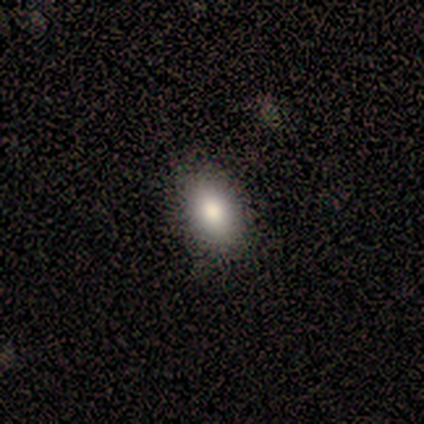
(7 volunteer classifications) A smooth galaxy with no disk features (71%) that is in between round and cigar-shaped (100%).

Vote fractions:
- Smooth or featured? smooth: 71% / featured or disk: 14% / star or artifact: 14%
- How rounded? in between: 100% / round: 0% / cigar-shaped: 0%
- Merging? none: 83% / minor disturbance: 17% / major disturbance: 0% / merger: 0%